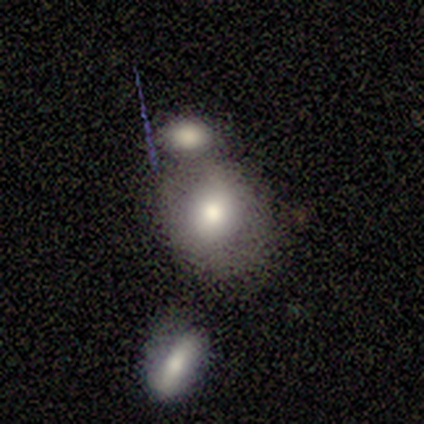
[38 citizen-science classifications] Smooth or featured? smooth (76%)
How rounded? round (72%)
Merging? merger (53%)